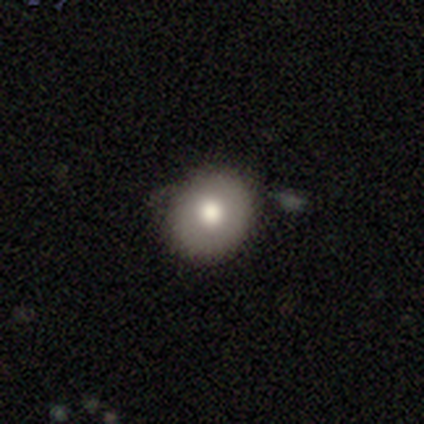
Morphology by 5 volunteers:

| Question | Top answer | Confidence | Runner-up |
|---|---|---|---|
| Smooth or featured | smooth | 80% | star or artifact (20%) |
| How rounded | round | 75% | in between (25%) |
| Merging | none | 50% | minor disturbance (25%) |